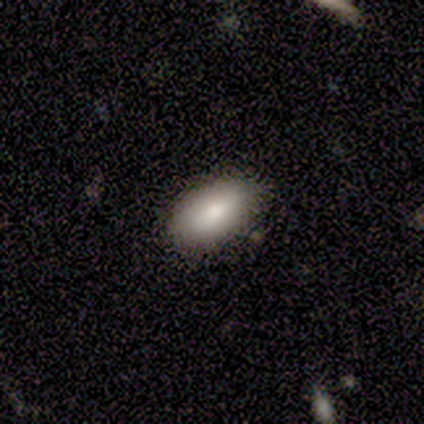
Smooth or featured? smooth (60%)
How rounded? in between (100%)
Merging? none (100%)